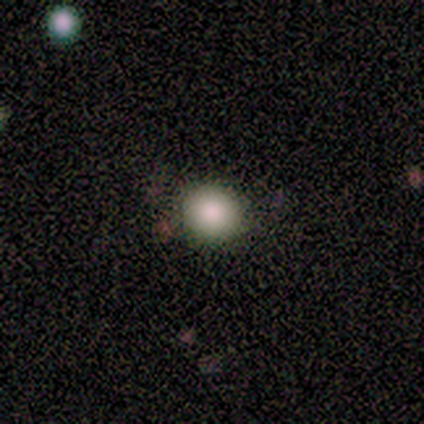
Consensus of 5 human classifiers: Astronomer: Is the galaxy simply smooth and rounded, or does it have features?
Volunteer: smooth — 100%.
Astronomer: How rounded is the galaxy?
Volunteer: round — 100%.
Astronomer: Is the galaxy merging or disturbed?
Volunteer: none — 100%.